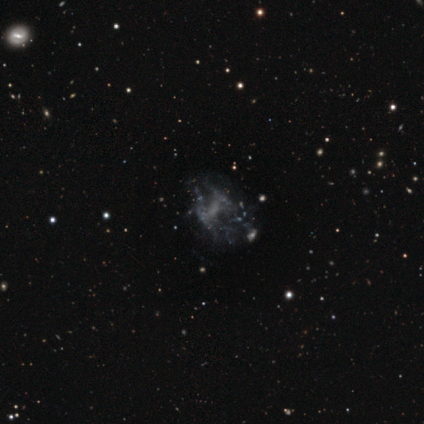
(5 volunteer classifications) Morphology: type=featured or disk (100%); edge-on=no (100%); bar=no (80%); spiral arms=no (80%); bulge=large (40%, tied with none); merging=none (60%).